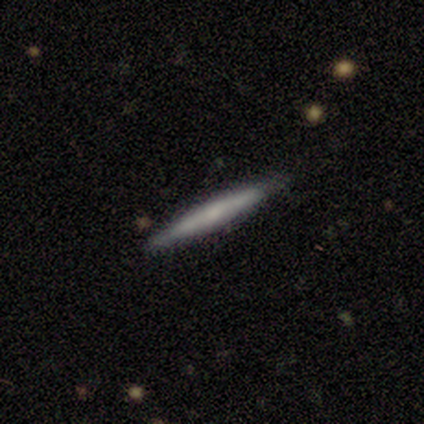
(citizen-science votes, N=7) Smooth or featured? smooth (43%, tied with featured or disk)
How rounded? cigar-shaped (100%)
Merging? none (100%)